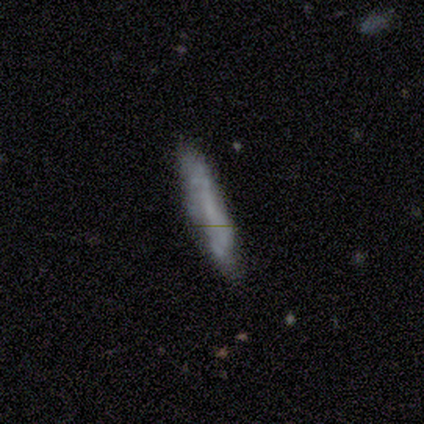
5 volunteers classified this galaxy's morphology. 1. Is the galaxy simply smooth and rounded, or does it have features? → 60% smooth, 40% featured or disk, 0% star or artifact.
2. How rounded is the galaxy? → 100% cigar-shaped, 0% round, 0% in between.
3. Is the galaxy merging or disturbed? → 80% none, 20% minor disturbance, 0% major disturbance, 0% merger.